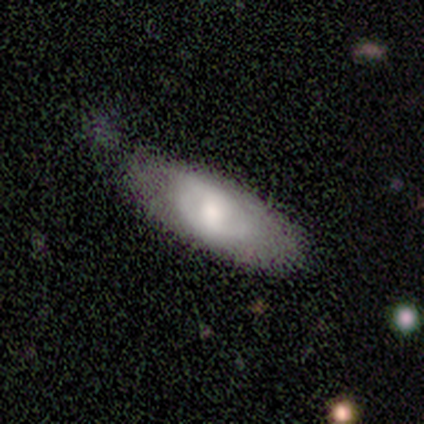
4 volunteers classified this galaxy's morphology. smooth-or-featured: smooth: 75% | featured or disk: 25% | star or artifact: 0%
  how-rounded: in between: 100% | round: 0% | cigar-shaped: 0%
  merging: none: 75% | minor disturbance: 25% | major disturbance: 0% | merger: 0%